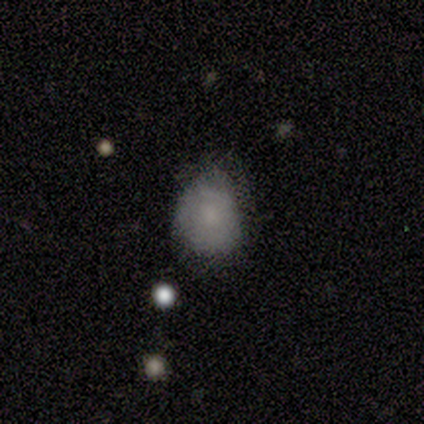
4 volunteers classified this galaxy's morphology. A smooth galaxy with no disk features (75%) that is round (100%). Merging: none (50%, tied with minor disturbance).